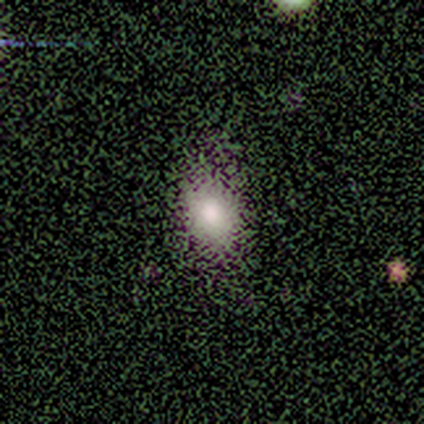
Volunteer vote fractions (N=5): Smooth or featured? 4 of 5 (80%) said smooth. How rounded? 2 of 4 (50%, tied with in between) said round. Merging? 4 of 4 (100%) said none.